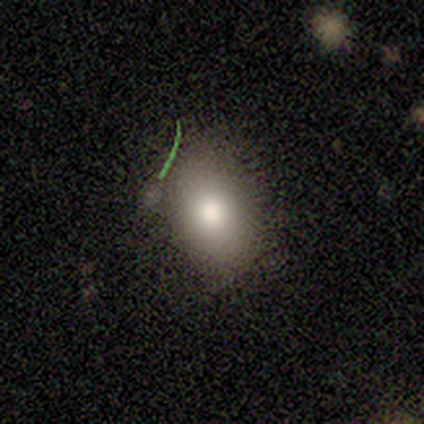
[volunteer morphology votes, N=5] type=smooth (60%); roundness=in between (67%); merging=none (100%).